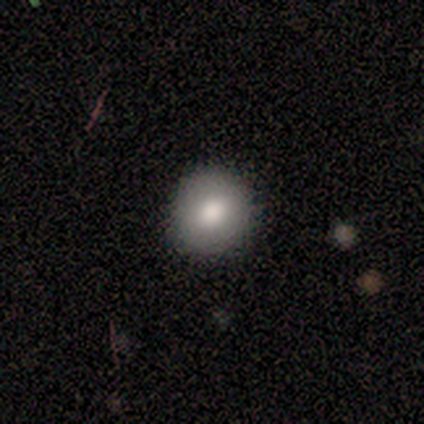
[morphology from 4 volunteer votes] A smooth galaxy with no disk features (100%) that is round (75%).

Vote fractions:
- Smooth or featured? smooth: 100% / featured or disk: 0% / star or artifact: 0%
- How rounded? round: 75% / in between: 25% / cigar-shaped: 0%
- Merging? none: 75% / major disturbance: 25% / minor disturbance: 0% / merger: 0%